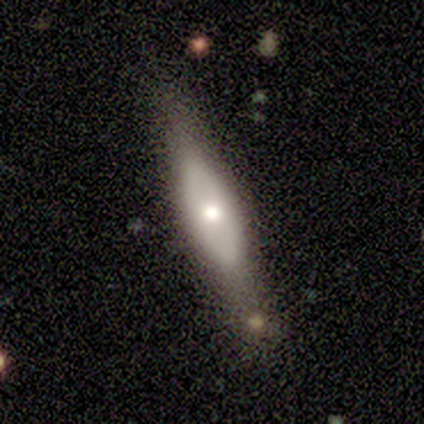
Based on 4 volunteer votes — This is likely a smooth galaxy (75%). How rounded: likely cigar-shaped (67%). Merging: possibly none (50%).